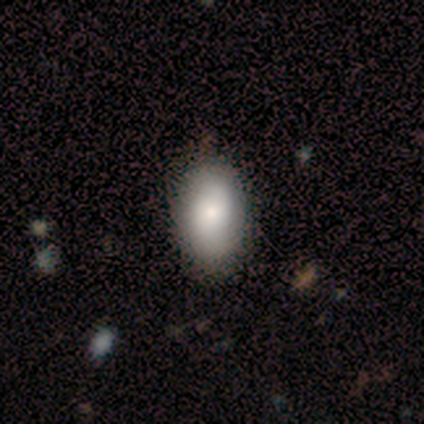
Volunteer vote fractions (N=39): Q: Smooth or featured?
A: smooth (67%); runner-up: featured or disk (28%)
Q: How rounded?
A: in between (92%); runner-up: round (4%)
Q: Merging?
A: none (46%); runner-up: minor disturbance (11%)